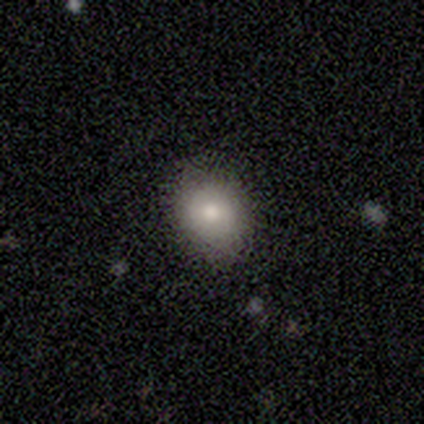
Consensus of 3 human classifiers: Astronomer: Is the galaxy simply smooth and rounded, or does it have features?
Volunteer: smooth — 100%.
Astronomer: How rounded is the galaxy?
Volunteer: round — 100%.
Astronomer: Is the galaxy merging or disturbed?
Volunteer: none — 100%.